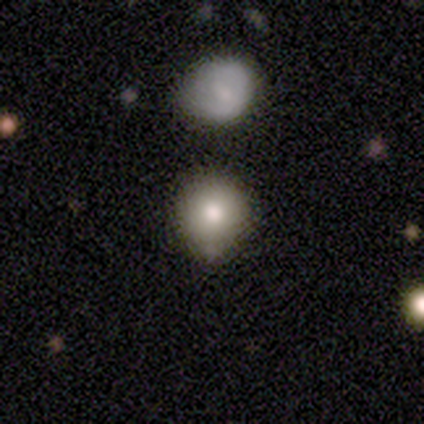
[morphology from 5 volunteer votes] Smooth or featured: smooth — 40% (tied with star or artifact — 40%)
How rounded: round — 100%
Merging: minor disturbance — 67% (none — 33%)